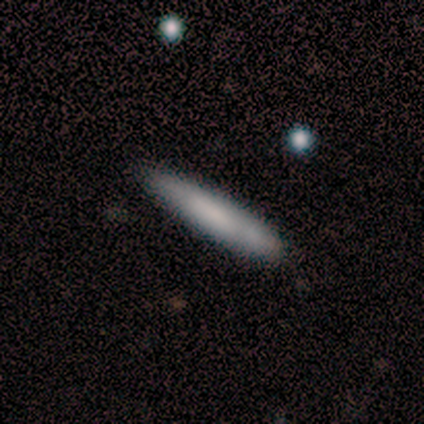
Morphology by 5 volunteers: A smooth galaxy with no disk features (60%) that is cigar-shaped (67%).

Vote fractions:
- Smooth or featured? smooth: 60% / featured or disk: 40% / star or artifact: 0%
- How rounded? cigar-shaped: 67% / in between: 33% / round: 0%
- Merging? none: 60% / minor disturbance: 20% / major disturbance: 20% / merger: 0%